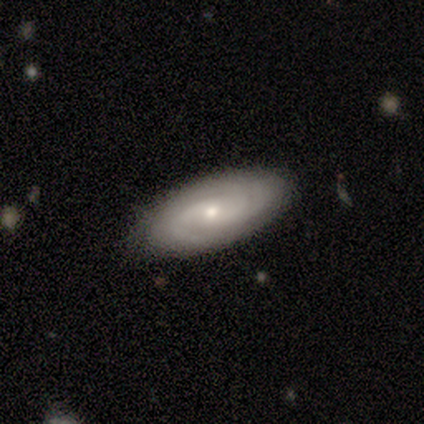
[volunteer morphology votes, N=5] smooth_or_featured: featured or disk (p=1.00)
disk_edge_on: no (p=1.00)
bar: no (p=0.60) [alt: weak p=0.40]
has_spiral_arms: yes (p=1.00)
spiral_winding: tight (p=0.60) [alt: medium p=0.20]
spiral_arm_count: 2 (p=0.40) [tied with: can't tell p=0.40]
bulge_size: small (p=1.00)
merging: none (p=1.00)